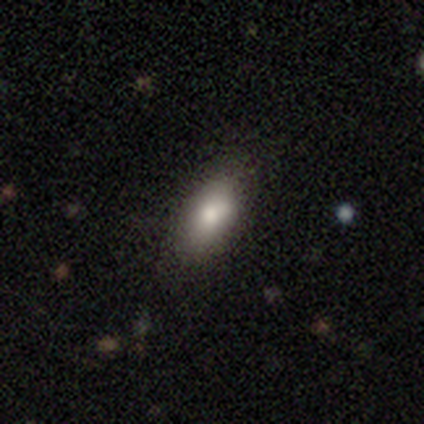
Smooth or featured: smooth — 50% (tied with featured or disk — 50%)
How rounded: in between — 100%
Merging: none — 100%